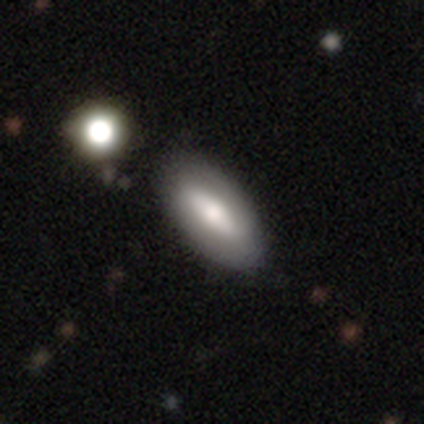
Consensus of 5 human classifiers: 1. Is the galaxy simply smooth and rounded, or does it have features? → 60% smooth, 40% featured or disk, 0% star or artifact.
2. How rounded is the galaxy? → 100% in between, 0% round, 0% cigar-shaped.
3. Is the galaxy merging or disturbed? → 80% none, 20% minor disturbance, 0% major disturbance, 0% merger.